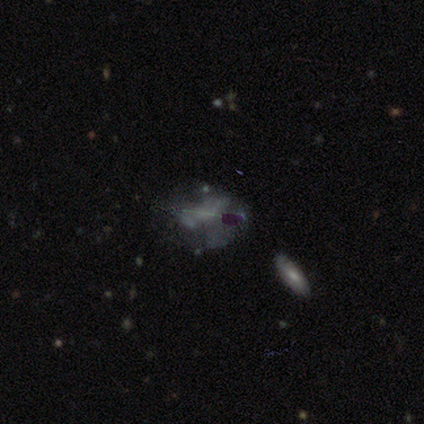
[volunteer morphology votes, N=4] Volunteers were most divided on "smooth or featured": featured or disk: 75%, star or artifact: 25%, smooth: 0%. More confident: edge-on disk — no (100%); bar — no (100%); spiral arms — no (100%); bulge size — none (100%); merging — major disturbance (100%).